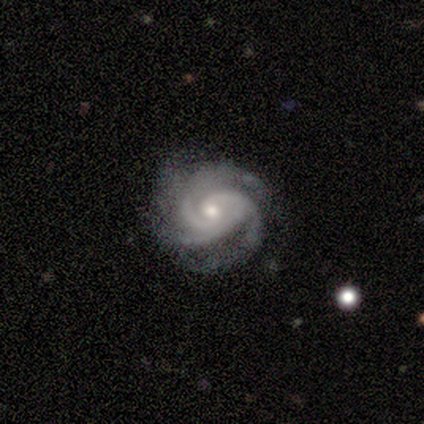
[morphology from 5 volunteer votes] Volunteers were most divided on "bar" (2-way tie): weak: 40%, no: 40%, strong: 20%. More confident: smooth or featured — featured or disk (100%); edge-on disk — no (100%); spiral arms — yes (100%); spiral winding — tight (80%); spiral arm count — 3 (80%); merging — none (80%); bulge size — moderate (60%).